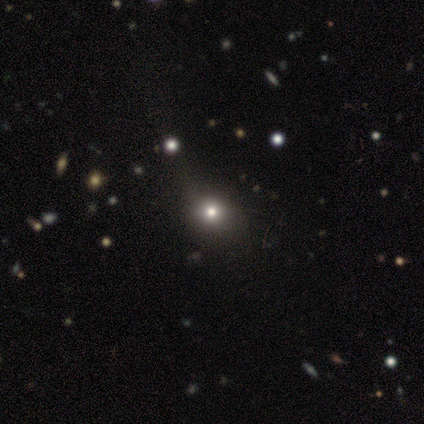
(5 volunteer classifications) Morphology: type=featured or disk (40%, tied with star or artifact); edge-on=no (100%); bar=no (100%); spiral arms=no (100%); bulge=moderate (100%); merging=none (100%).